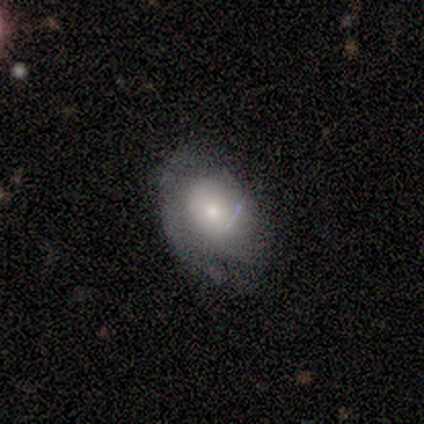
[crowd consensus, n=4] Morphology: type=smooth (75%); roundness=in between (100%); merging=none (50%).